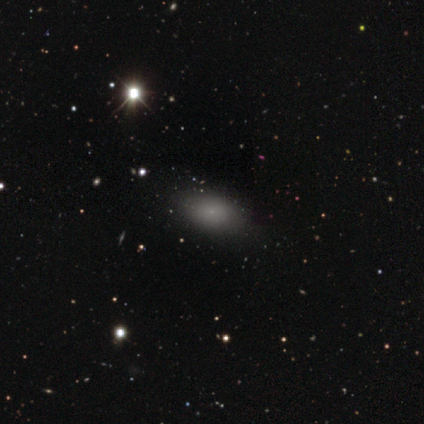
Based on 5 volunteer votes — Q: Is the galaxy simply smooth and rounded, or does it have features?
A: smooth — 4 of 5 (80%).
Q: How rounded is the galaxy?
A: in between — 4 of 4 (100%).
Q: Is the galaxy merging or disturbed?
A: none — 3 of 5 (60%).